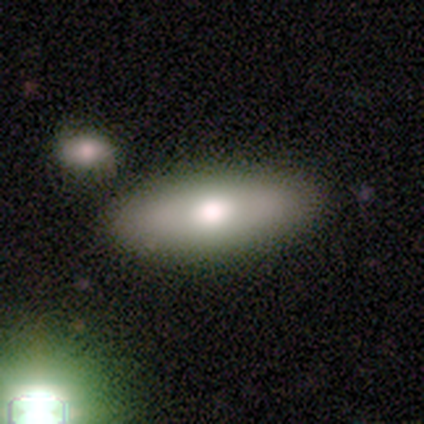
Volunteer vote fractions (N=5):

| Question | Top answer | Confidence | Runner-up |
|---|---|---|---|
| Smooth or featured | smooth | 80% | star or artifact (20%) |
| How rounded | in between | 75% | cigar-shaped (25%) |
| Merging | none | 75% | merger (25%) |